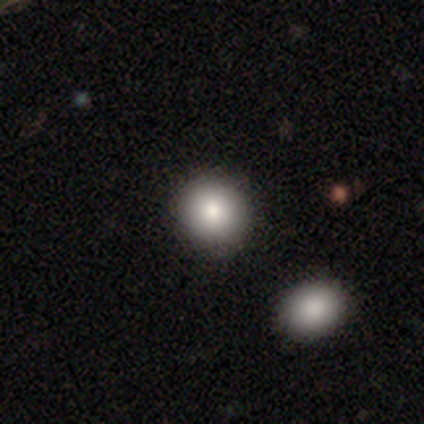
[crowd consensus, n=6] smooth_or_featured: smooth (p=0.83) [alt: star or artifact p=0.17]
how_rounded: round (p=1.00)
merging: none (p=1.00)